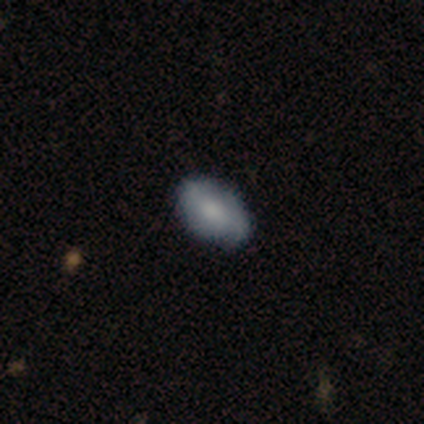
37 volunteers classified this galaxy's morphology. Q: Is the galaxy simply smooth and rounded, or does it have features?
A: smooth — 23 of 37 (62%).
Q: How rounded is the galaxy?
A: in between — 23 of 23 (100%).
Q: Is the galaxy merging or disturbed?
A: none — 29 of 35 (83%).